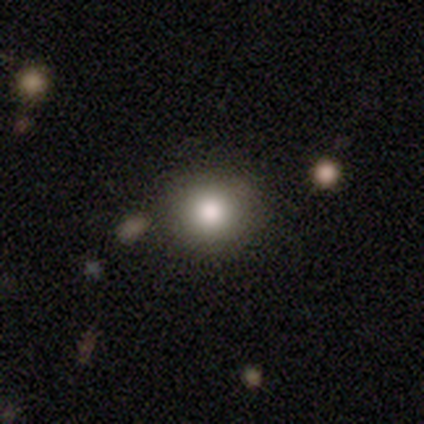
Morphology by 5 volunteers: Q: Smooth or featured?
A: smooth (80%); runner-up: star or artifact (20%)
Q: How rounded?
A: round (75%); runner-up: in between (25%)
Q: Merging?
A: none (75%); runner-up: minor disturbance (25%)